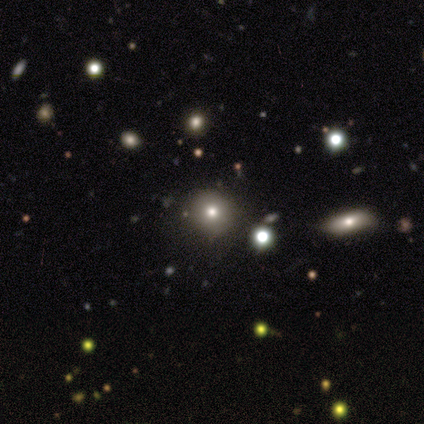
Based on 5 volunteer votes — This appears to be a smooth galaxy with no disk features (60%) that is round (100%). Merging: none (100%).